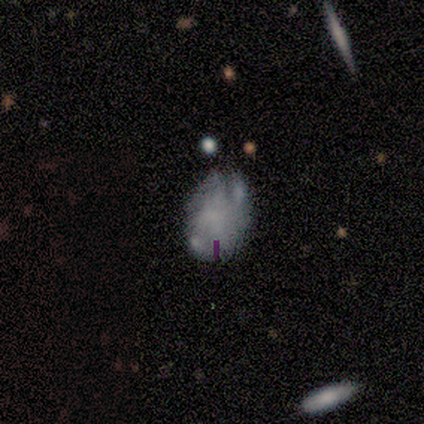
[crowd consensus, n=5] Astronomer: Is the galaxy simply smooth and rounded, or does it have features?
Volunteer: featured or disk — 80%.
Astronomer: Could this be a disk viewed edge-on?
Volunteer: no — 100%.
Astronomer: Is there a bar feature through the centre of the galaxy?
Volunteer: no — 100%.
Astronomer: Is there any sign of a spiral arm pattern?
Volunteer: no — 75%.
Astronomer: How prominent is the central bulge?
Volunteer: none — 100%.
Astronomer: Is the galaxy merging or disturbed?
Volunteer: minor disturbance — 60% (runner-up: none, 40%).